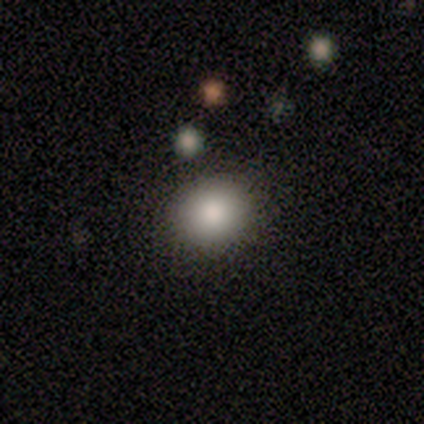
Smooth or featured: smooth — 80% (star or artifact — 20%)
How rounded: round — 75% (in between — 25%)
Merging: none — 100%